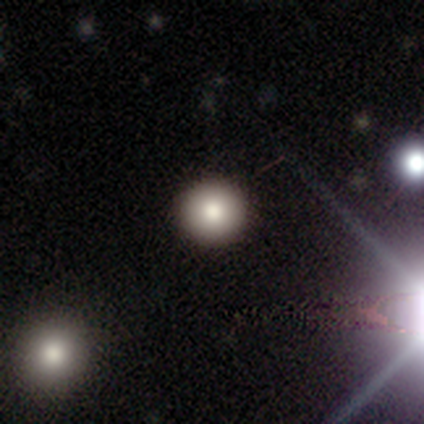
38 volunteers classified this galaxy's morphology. Smooth or featured? 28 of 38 (74%) said smooth. How rounded? 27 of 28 (96%) said round. Merging? 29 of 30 (97%) said none.